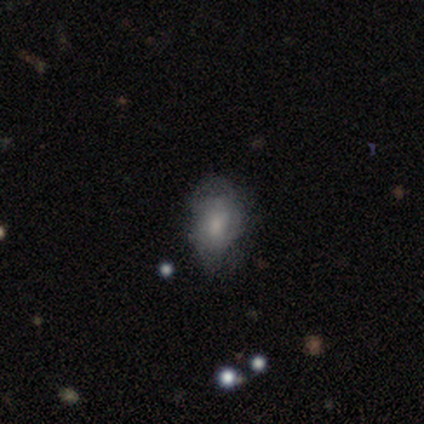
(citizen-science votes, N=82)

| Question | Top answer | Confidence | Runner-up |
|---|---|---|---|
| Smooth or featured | smooth | 60% | featured or disk (32%) |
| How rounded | in between | 82% | round (12%) |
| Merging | minor disturbance | 43% | none (39%) |